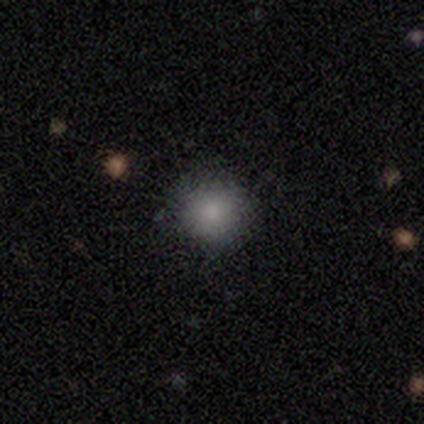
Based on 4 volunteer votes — A smooth galaxy with no disk features (100%) that is round (75%).

Vote fractions:
- Smooth or featured? smooth: 100% / featured or disk: 0% / star or artifact: 0%
- How rounded? round: 75% / in between: 25% / cigar-shaped: 0%
- Merging? none: 100% / minor disturbance: 0% / major disturbance: 0% / merger: 0%